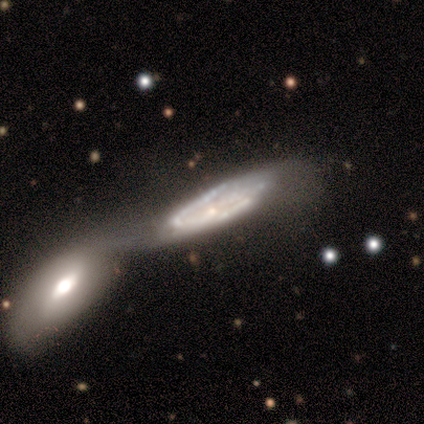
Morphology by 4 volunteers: smooth-or-featured: featured or disk: 100% | smooth: 0% | star or artifact: 0%
  disk-edge-on: yes: 50% (tied) | no: 50% (tied)
    edge-on-bulge: none: 50% (tied) | rounded: 50% (tied) | boxy: 0%
  merging: merger: 75% | minor disturbance: 25% | none: 0% | major disturbance: 0%